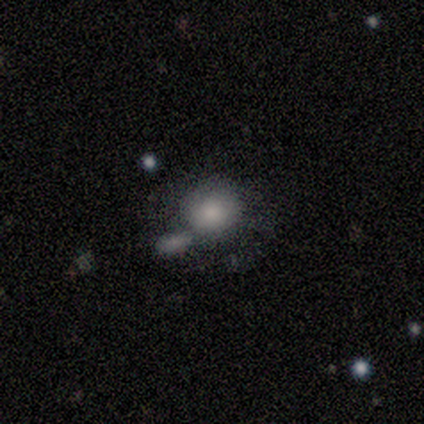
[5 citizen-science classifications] smooth_or_featured: smooth (p=0.80) [alt: featured or disk p=0.20]
how_rounded: round (p=1.00)
merging: merger (p=0.80) [alt: none p=0.20]